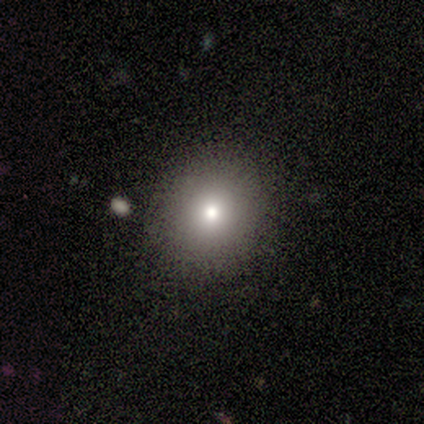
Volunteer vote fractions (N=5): Smooth or featured? 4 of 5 (80%) said smooth. How rounded? 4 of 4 (100%) said round. Merging? 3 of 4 (75%) said none.